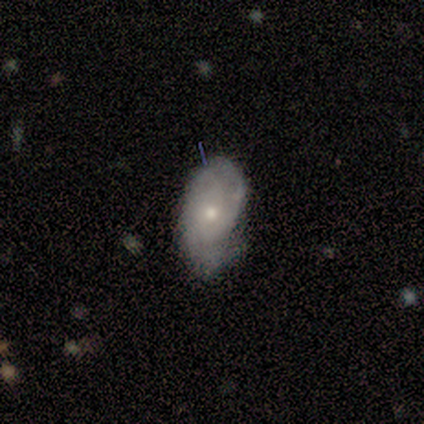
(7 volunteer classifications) Smooth or featured?
  - featured or disk: 100% *
  - smooth: 0%
  - star or artifact: 0%
Edge-on disk?
  - no: 100% *
  - yes: 0%
Bar?
  - no: 86% *
  - weak: 14%
  - strong: 0%
Spiral arms?
  - yes: 71% *
  - no: 29%
Spiral winding?
  - loose: 60% *
  - tight: 20%
  - medium: 20%
Spiral arm count?
  - 3: 60% *
  - 2: 20%
  - can't tell: 20%
  - 1: 0%
  - 4: 0%
  - more than 4: 0%
Bulge size?
  - small: 71% *
  - moderate: 29%
  - dominant: 0%
  - large: 0%
  - none: 0%
Merging?
  - major disturbance: 43% *
  - none: 29%
  - minor disturbance: 29%
  - merger: 0%